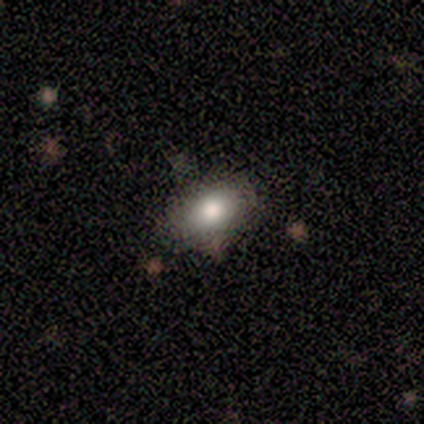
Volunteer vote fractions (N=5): Volunteers were most divided on "how rounded": in between: 80%, round: 20%, cigar-shaped: 0%. More confident: smooth or featured — smooth (100%); merging — none (80%).